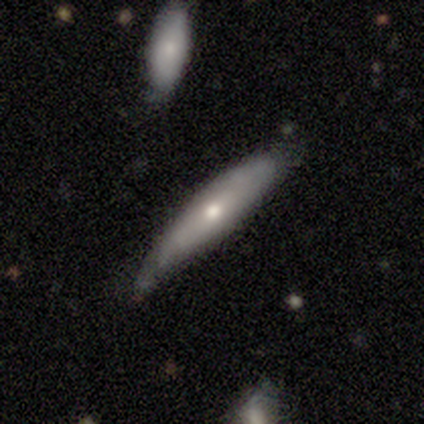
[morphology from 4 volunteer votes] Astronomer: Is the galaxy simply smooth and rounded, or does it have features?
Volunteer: smooth — 75%.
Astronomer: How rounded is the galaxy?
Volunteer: cigar-shaped — 67%.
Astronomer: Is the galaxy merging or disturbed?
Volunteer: minor disturbance — 100%.